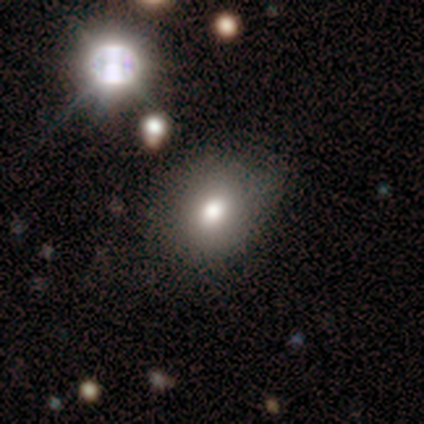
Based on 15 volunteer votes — This appears to be a smooth galaxy with no disk features (73%) that is in between round and cigar-shaped (73%). Merging: none (79%).